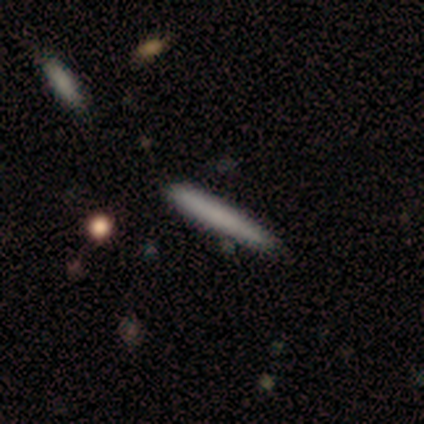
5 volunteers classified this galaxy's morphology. smooth_or_featured: smooth (p=0.80) [alt: featured or disk p=0.20]
how_rounded: cigar-shaped (p=1.00)
merging: none (p=0.80) [alt: minor disturbance p=0.20]